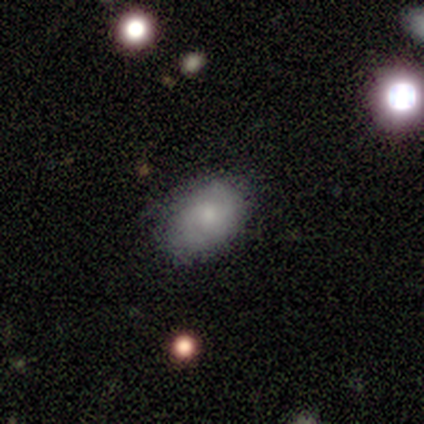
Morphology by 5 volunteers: Smooth or featured? 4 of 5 (80%) said smooth. How rounded? 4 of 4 (100%) said in between. Merging? 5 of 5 (100%) said none.